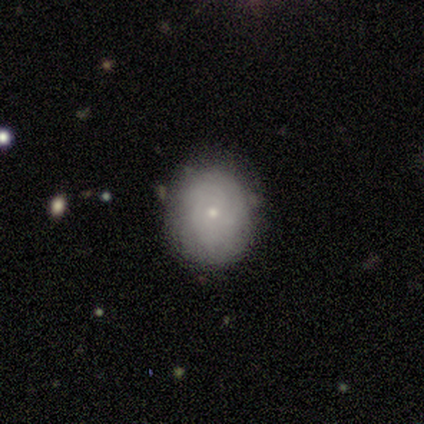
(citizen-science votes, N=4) Smooth or featured? 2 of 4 (50%) said star or artifact.